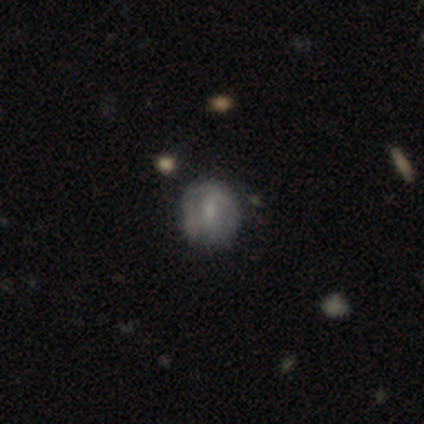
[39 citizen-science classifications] smooth_or_featured: smooth (p=0.46) [alt: featured or disk p=0.44]
how_rounded: round (p=0.94) [alt: in between p=0.06]
merging: none (p=0.63) [alt: minor disturbance p=0.29]